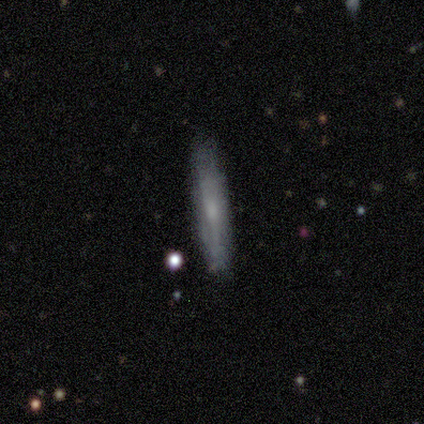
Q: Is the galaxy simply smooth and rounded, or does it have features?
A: featured or disk — 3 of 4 (75%).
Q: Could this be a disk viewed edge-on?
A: yes — 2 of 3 (67%).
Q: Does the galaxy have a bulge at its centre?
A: rounded — 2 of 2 (100%).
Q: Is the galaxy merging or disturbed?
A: none — 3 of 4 (75%).